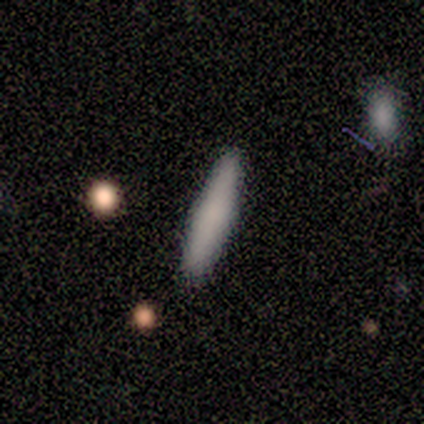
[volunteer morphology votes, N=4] Smooth or featured?
  - smooth: 100% *
  - featured or disk: 0%
  - star or artifact: 0%
How rounded?
  - cigar-shaped: 100% *
  - round: 0%
  - in between: 0%
Merging?
  - none: 100% *
  - minor disturbance: 0%
  - major disturbance: 0%
  - merger: 0%